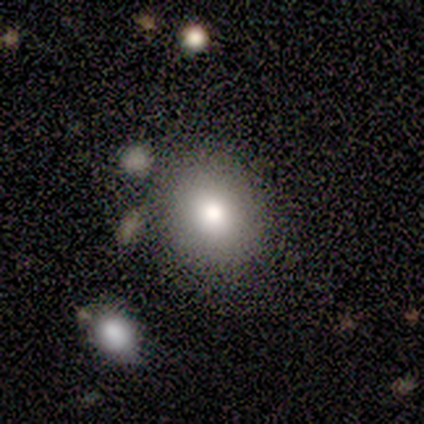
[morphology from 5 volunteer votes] A smooth galaxy with no disk features (80%) that is round (100%).

Vote fractions:
- Smooth or featured? smooth: 80% / star or artifact: 20% / featured or disk: 0%
- How rounded? round: 100% / in between: 0% / cigar-shaped: 0%
- Merging? none: 100% / minor disturbance: 0% / major disturbance: 0% / merger: 0%